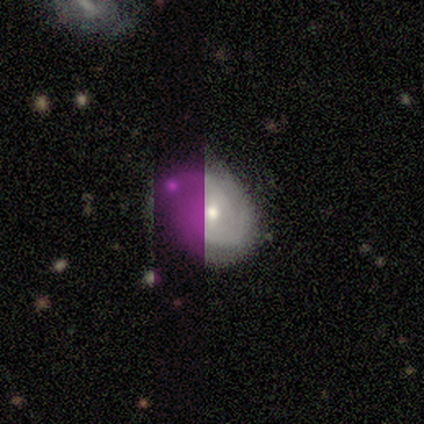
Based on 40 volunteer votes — Smooth or featured? featured or disk (55%)
Edge-on disk? no (95%)
Bar? no (57%)
Spiral arms? yes (90%)
Spiral winding? medium (58%)
Spiral arm count? 2 (32%, tied with 3 and can't tell)
Bulge size? moderate (62%)
Merging? none (75%)